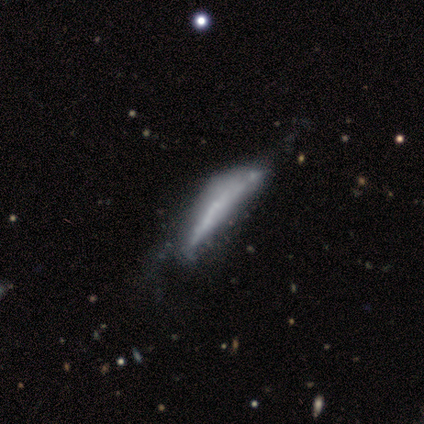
Q: Smooth or featured?
A: featured or disk (80%); runner-up: smooth (20%)
Q: Edge-on disk?
A: yes (75%); runner-up: no (25%)
Q: Edge-on bulge?
A: none (67%); runner-up: boxy (33%)
Q: Merging?
A: none (60%); runner-up: major disturbance (40%)